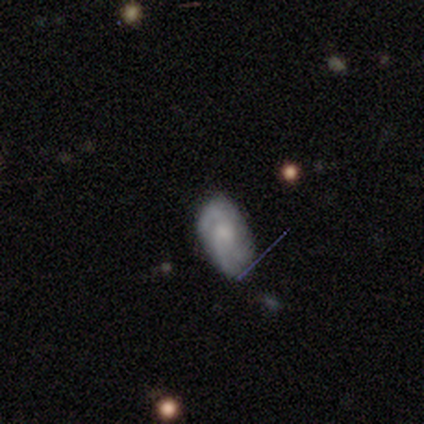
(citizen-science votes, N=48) Smooth or featured? featured or disk (54%)
Edge-on disk? no (88%)
Bar? no (91%)
Spiral arms? yes (87%)
Spiral winding? tight (55%)
Spiral arm count? 3 (50%)
Bulge size? small (43%)
Merging? none (65%)